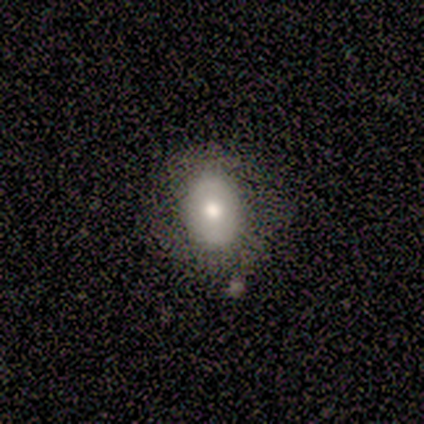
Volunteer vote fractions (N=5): smooth-or-featured: smooth: 80% | featured or disk: 20% | star or artifact: 0%
  how-rounded: in between: 75% | round: 25% | cigar-shaped: 0%
  merging: none: 60% | major disturbance: 40% | minor disturbance: 0% | merger: 0%